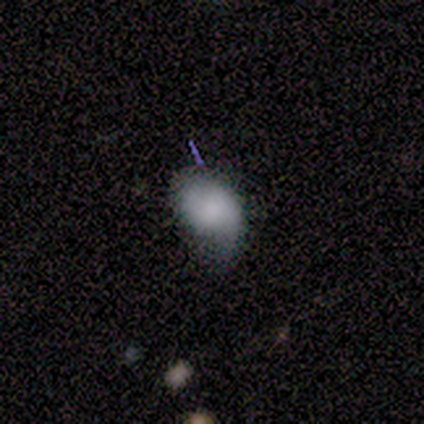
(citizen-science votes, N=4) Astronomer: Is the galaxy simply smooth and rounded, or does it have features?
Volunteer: smooth — 100%.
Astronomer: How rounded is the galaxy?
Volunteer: in between — 100%.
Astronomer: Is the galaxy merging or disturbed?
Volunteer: none — 50%, tied with minor disturbance at 50%.